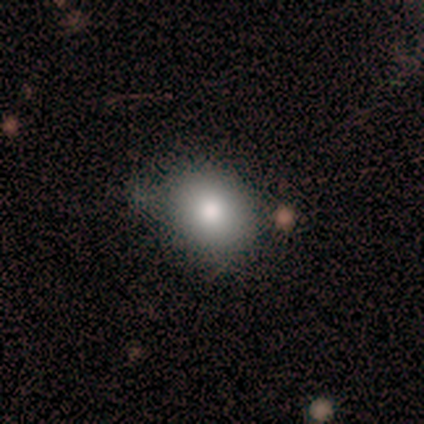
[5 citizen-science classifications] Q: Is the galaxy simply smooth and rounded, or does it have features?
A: smooth — 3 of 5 (60%).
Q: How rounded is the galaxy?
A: round — 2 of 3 (67%).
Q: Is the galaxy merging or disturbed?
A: none — 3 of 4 (75%).